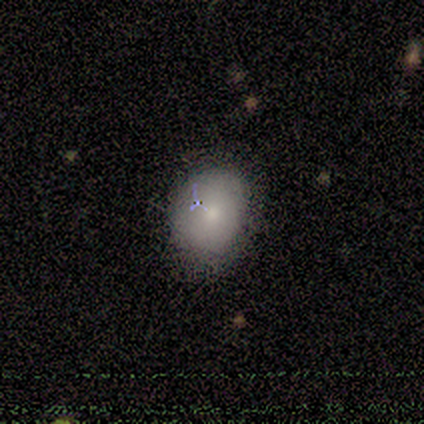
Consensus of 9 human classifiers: A smooth galaxy with no disk features (78%) that is round (57%).

Vote fractions:
- Smooth or featured? smooth: 78% / featured or disk: 11% / star or artifact: 11%
- How rounded? round: 57% / in between: 43% / cigar-shaped: 0%
- Merging? none: 75% / minor disturbance: 25% / major disturbance: 0% / merger: 0%